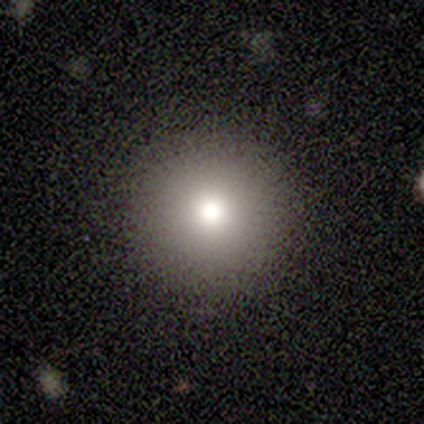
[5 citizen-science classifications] smooth 60%, star or artifact 40%, featured or disk 0%. Down the decision tree: how rounded — round (100%); merging — none (100%).